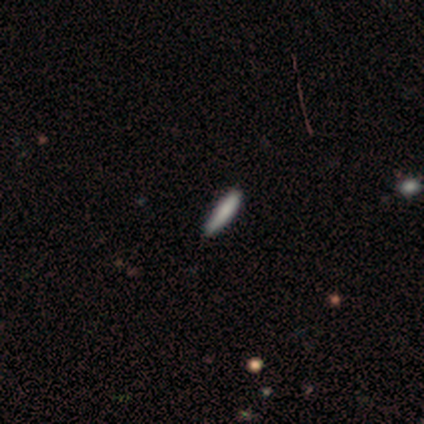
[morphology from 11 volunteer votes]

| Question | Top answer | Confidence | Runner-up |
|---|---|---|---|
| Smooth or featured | smooth | 45% | tied: featured or disk (45%) |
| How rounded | cigar-shaped | 80% | in between (20%) |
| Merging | none | 90% | minor disturbance (10%) |